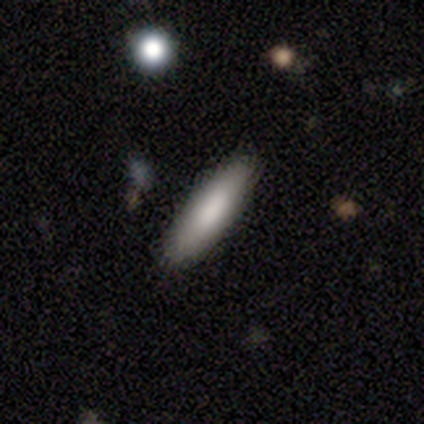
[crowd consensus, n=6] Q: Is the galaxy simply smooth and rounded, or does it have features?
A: smooth — 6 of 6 (100%).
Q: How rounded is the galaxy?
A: cigar-shaped — 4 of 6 (67%).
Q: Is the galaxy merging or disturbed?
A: none — 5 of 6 (83%).